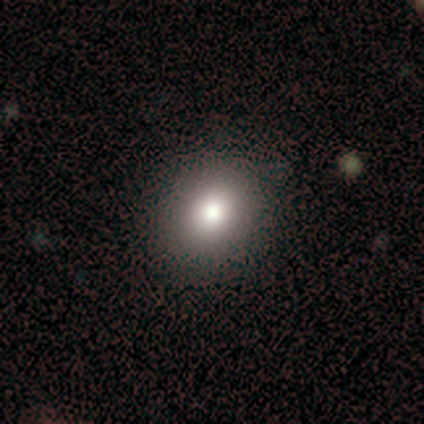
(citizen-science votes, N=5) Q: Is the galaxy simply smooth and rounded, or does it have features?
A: smooth — 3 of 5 (60%).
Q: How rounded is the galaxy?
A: round — 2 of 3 (67%).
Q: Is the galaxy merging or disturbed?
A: none — 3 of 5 (60%).